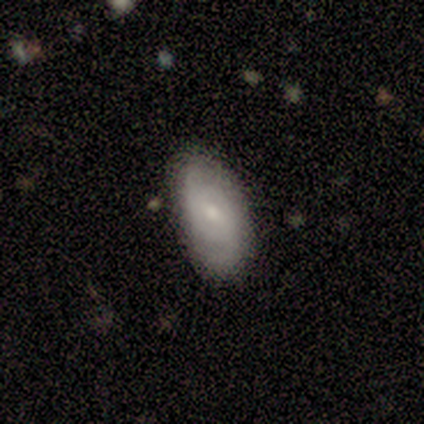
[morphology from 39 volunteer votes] type=featured or disk (51%); edge-on=no (100%); bar=weak (45%, tied with no); spiral arms=yes (75%); winding=tight (47%, tied with medium); arm count=2 (73%); bulge=small (75%); merging=none (81%).